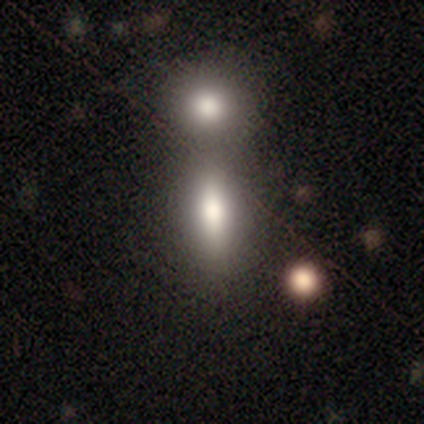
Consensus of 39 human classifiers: A smooth galaxy with no disk features (74%) that is in between round and cigar-shaped (72%).

Vote fractions:
- Smooth or featured? smooth: 74% / featured or disk: 13% / star or artifact: 13%
- How rounded? in between: 72% / cigar-shaped: 24% / round: 3%
- Merging? none: 44% / merger: 41% / minor disturbance: 15% / major disturbance: 0%